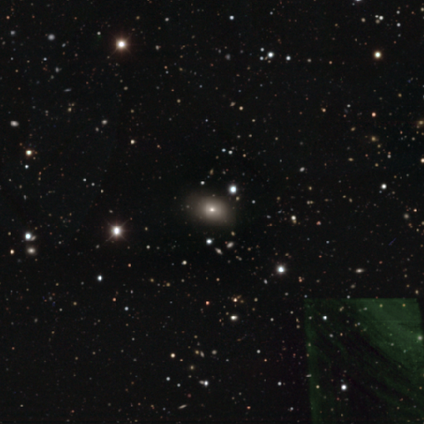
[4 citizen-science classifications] smooth-or-featured: smooth: 50% (tied) | featured or disk: 50% (tied) | star or artifact: 0%
  how-rounded: round: 50% (tied) | in between: 50% (tied) | cigar-shaped: 0%
  merging: none: 75% | minor disturbance: 25% | major disturbance: 0% | merger: 0%